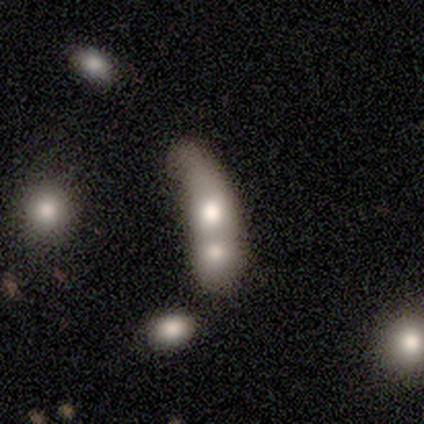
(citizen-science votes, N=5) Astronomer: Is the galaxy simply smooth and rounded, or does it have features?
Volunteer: star or artifact — 60%.